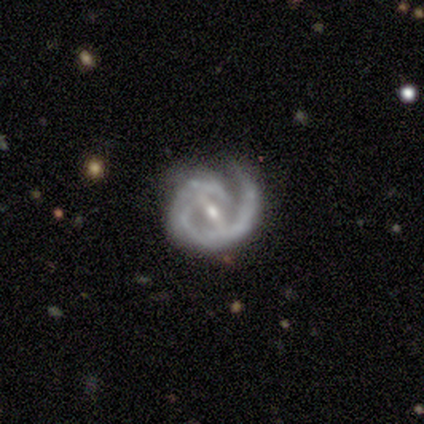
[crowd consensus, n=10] featured or disk 100%, smooth 0%, star or artifact 0%. Down the decision tree: edge-on disk — no (100%); bar — strong (50%); spiral arms — yes (90%); spiral arm count — 1 (67%); spiral winding — medium (56%); bulge size — small (60%); merging — none (80%).